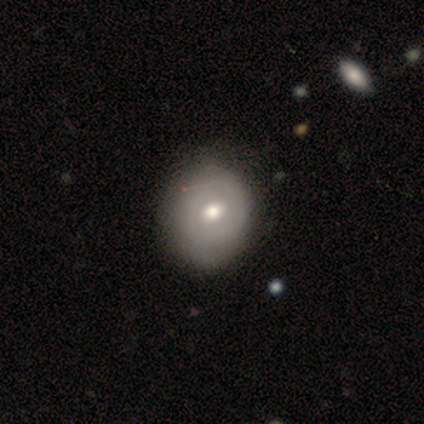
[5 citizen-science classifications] A featured or disk galaxy (80%) with a weak bar (50%, tied with no), no spiral arms (100%) and a moderate central bulge (100%). Merging: none (60%).